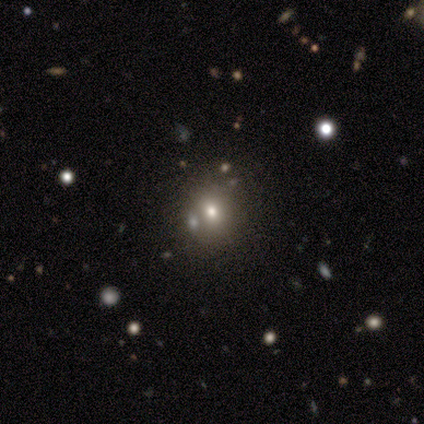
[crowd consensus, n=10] A smooth galaxy with no disk features (70%) that is round (86%). Merging: none (88%).